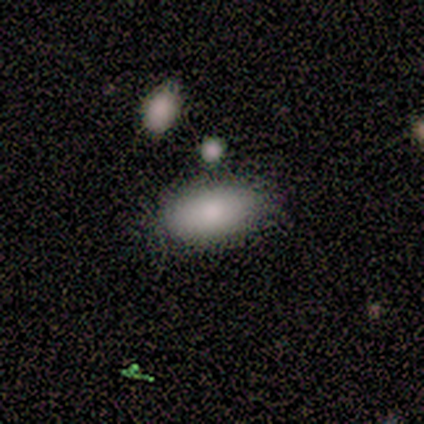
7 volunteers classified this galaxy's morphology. Overall: smooth (86%). How rounded: in between (83%). Merging: none (57%; merger 29%).